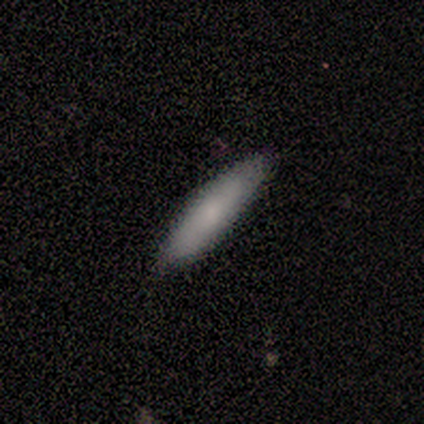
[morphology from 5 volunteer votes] smooth_or_featured: smooth (p=1.00)
how_rounded: cigar-shaped (p=1.00)
merging: none (p=0.80) [alt: minor disturbance p=0.20]